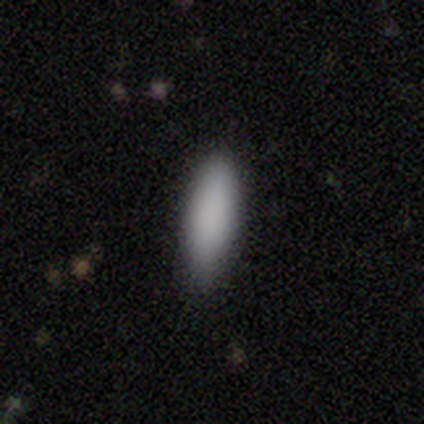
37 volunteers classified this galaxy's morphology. Smooth or featured?
  - smooth: 89% *
  - featured or disk: 8%
  - star or artifact: 3%
How rounded?
  - in between: 58% *
  - cigar-shaped: 42%
  - round: 0%
Merging?
  - none: 81% *
  - minor disturbance: 17%
  - major disturbance: 3%
  - merger: 0%